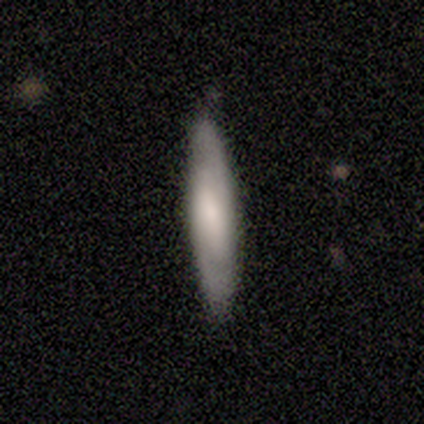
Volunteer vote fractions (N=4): Volunteers were most divided on "edge-on bulge": none: 67%, rounded: 33%, boxy: 0%. More confident: edge-on disk — yes (100%); merging — none (100%); smooth or featured — featured or disk (75%).